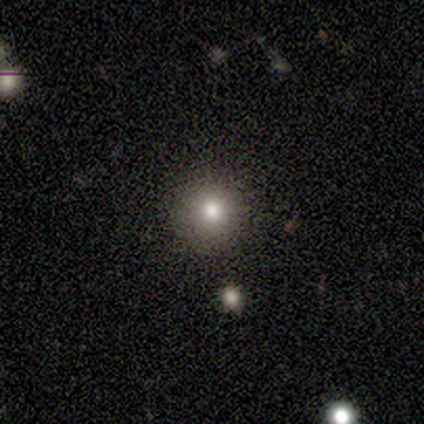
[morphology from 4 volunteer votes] smooth-or-featured: smooth: 75% | star or artifact: 25% | featured or disk: 0%
  how-rounded: round: 100% | in between: 0% | cigar-shaped: 0%
  merging: none: 100% | minor disturbance: 0% | major disturbance: 0% | merger: 0%